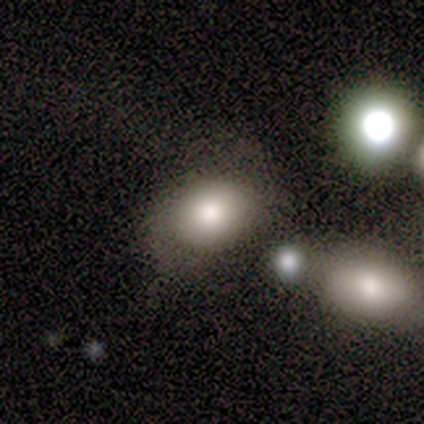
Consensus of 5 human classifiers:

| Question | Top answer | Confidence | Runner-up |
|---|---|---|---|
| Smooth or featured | smooth | 60% | featured or disk (20%) |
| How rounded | in between | 67% | round (33%) |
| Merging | none | 50% | minor disturbance (25%) |